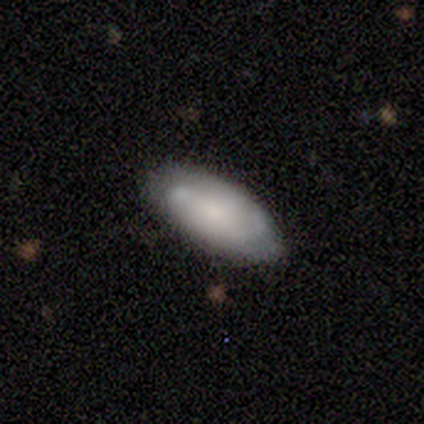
smooth 49%, featured or disk 44%, star or artifact 7%. Down the decision tree: how rounded — in between (82%); merging — none (68%).